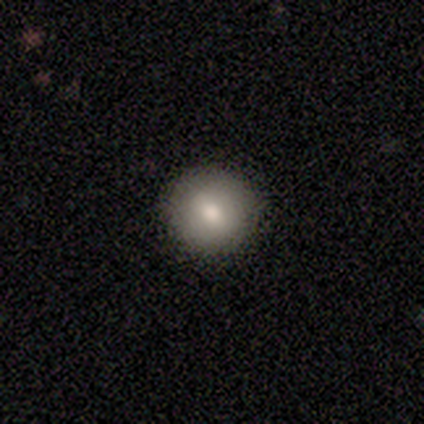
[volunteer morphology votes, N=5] This appears to be a smooth galaxy with no disk features (80%) that is round (100%). Merging: none (100%).